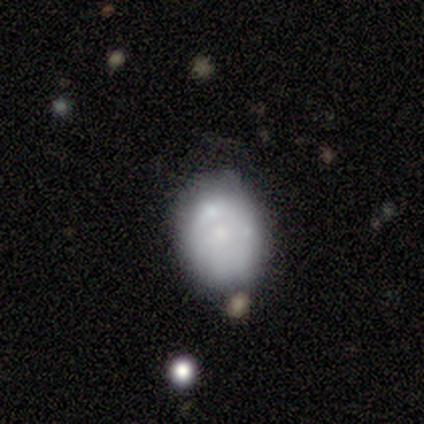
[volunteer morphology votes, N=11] smooth 55%, featured or disk 36%, star or artifact 9%. Down the decision tree: how rounded — in between (67%); merging — none (70%).